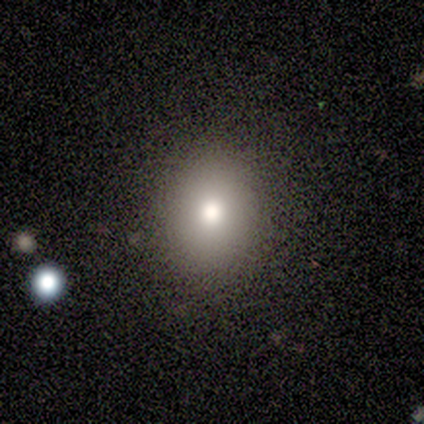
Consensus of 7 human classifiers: Smooth or featured: smooth — 57% (featured or disk — 29%)
How rounded: round — 100%
Merging: none — 100%